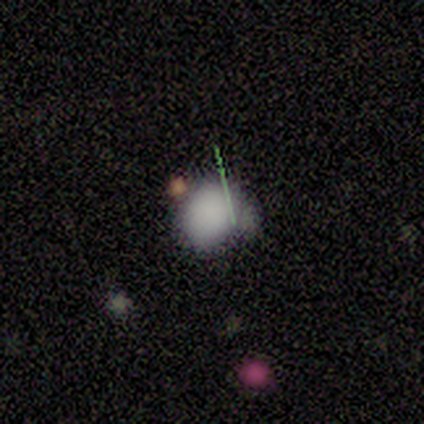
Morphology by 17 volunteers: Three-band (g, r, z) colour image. It shows a smooth galaxy with no disk features (76%) that is round (62%). Merging: none (46%, tied with minor disturbance).